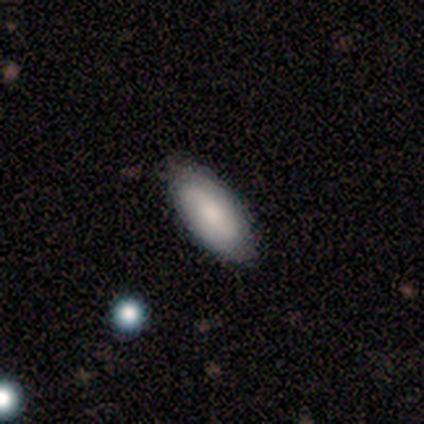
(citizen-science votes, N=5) This appears to be a smooth galaxy with no disk features (60%) that is in between round and cigar-shaped (100%). Merging: none (60%).